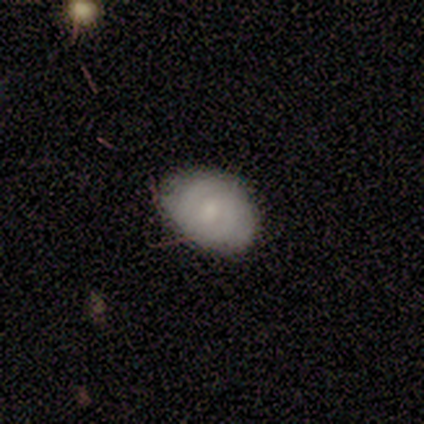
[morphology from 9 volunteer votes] Overall: featured or disk (44%; smooth 33%). Edge-on disk: no (100%). Bar: no (100%). Spiral arms: no (100%). Bulge size: large (50%; moderate 25%). Merging: none (71%).